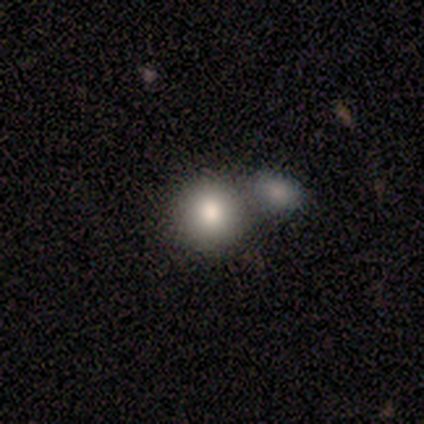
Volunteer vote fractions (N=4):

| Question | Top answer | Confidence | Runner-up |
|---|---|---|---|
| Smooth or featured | smooth | 75% | featured or disk (25%) |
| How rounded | round | 100% | — |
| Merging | none | 75% | merger (25%) |